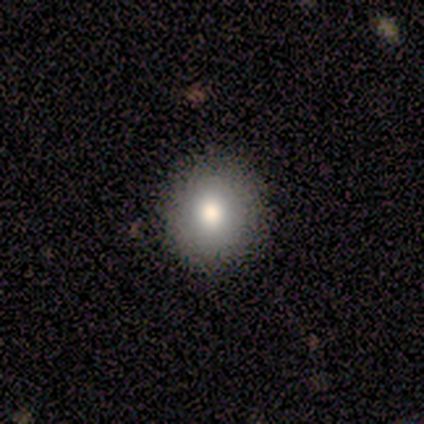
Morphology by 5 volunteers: smooth 60%, featured or disk 40%, star or artifact 0%. Down the decision tree: how rounded — round (100%); merging — none (100%).